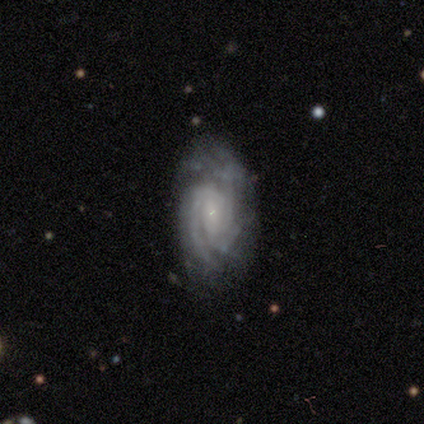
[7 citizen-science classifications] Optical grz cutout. It shows a featured or disk galaxy (86%) with a weak bar (67%), 3 (50%) tight (50%, tied with medium) spiral arms (100%) and a small central bulge (83%). Merging: none (83%).